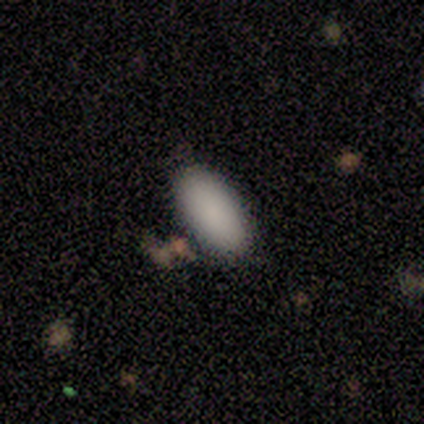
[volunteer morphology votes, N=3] Smooth or featured? 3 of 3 (100%) said smooth. How rounded? 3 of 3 (100%) said in between. Merging? 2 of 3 (67%) said minor disturbance.